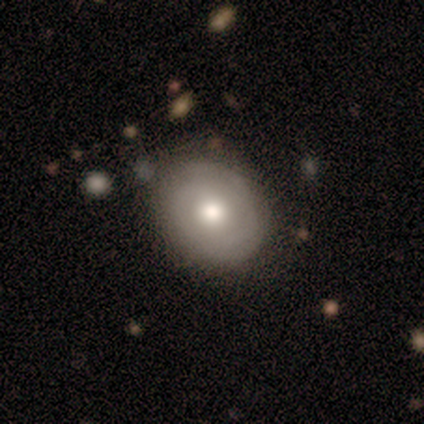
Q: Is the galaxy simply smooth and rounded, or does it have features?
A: smooth — 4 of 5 (80%).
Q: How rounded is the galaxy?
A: round — 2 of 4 (50%, tied with in between).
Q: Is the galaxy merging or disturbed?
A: minor disturbance — 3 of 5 (60%).